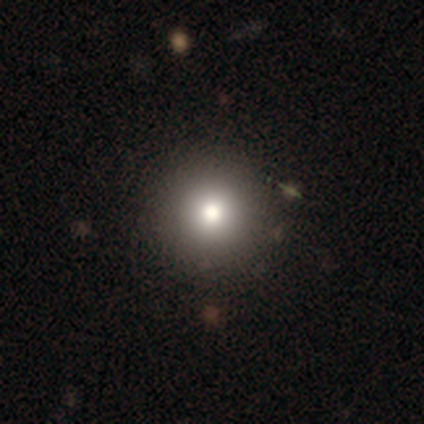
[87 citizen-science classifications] Smooth or featured? 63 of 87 (72%) said smooth. How rounded? 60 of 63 (95%) said round. Merging? 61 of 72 (85%) said none.